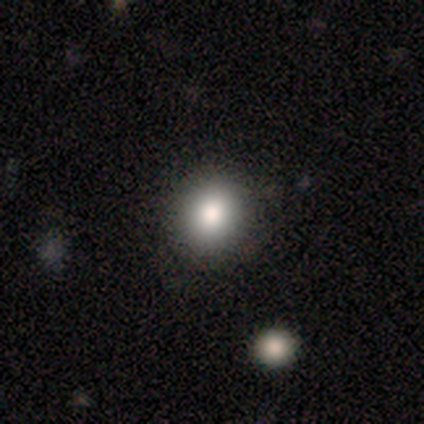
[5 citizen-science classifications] A smooth galaxy with no disk features (80%) that is round (75%).

Vote fractions:
- Smooth or featured? smooth: 80% / star or artifact: 20% / featured or disk: 0%
- How rounded? round: 75% / in between: 25% / cigar-shaped: 0%
- Merging? none: 100% / minor disturbance: 0% / major disturbance: 0% / merger: 0%